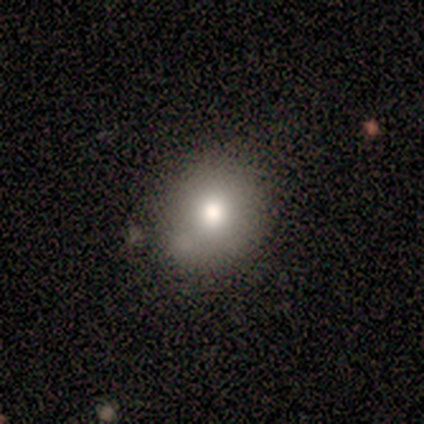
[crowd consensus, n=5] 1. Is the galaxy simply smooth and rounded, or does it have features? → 80% smooth, 20% star or artifact, 0% featured or disk.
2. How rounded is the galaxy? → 100% round, 0% in between, 0% cigar-shaped.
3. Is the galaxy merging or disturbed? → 75% none, 25% merger, 0% minor disturbance, 0% major disturbance.